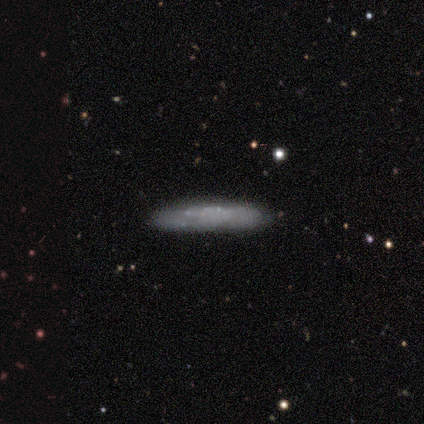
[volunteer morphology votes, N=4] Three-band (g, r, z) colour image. It shows a smooth galaxy with no disk features (100%) that is cigar-shaped (100%). Merging: none (75%).